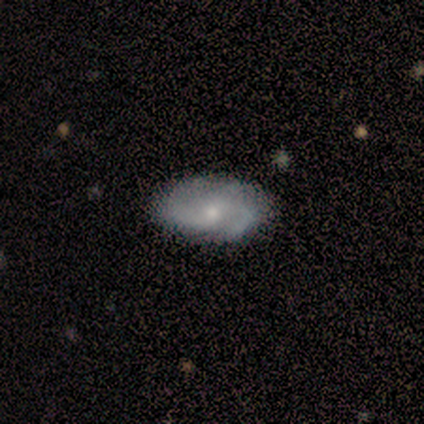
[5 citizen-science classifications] Overall: featured or disk (80%). Edge-on disk: no (75%). Bar: strong (33%, tied with weak and no). Spiral arms: yes (100%). Spiral arm count: 2 (33%, tied with 3 and 4). Spiral winding: medium (100%). Bulge size: moderate (67%; small 33%). Merging: none (100%).